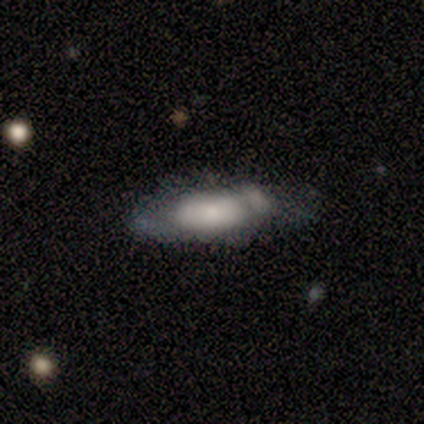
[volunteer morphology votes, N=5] Overall: smooth (60%; featured or disk 20%). How rounded: in between (100%). Merging: none (25%, tied with minor disturbance, major disturbance and merger).